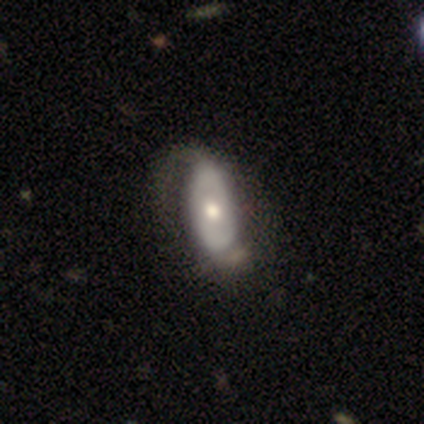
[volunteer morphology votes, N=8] A smooth galaxy with no disk features (75%) that is in between round and cigar-shaped (83%). Merging: none (50%).